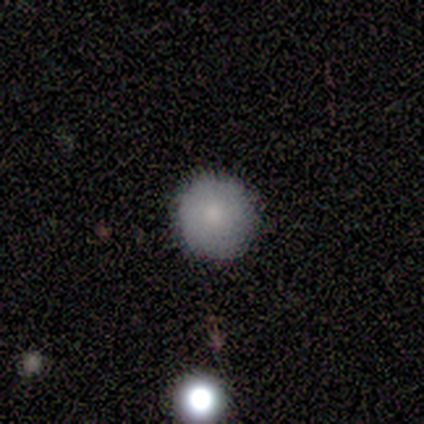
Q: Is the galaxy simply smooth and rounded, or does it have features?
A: smooth — 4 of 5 (80%).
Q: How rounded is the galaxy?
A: round — 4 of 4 (100%).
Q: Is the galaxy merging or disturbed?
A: none — 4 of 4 (100%).